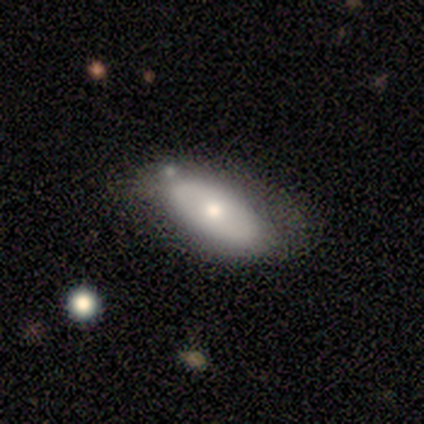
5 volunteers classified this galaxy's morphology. This is likely a smooth galaxy (60%). How rounded: clearly in between (100%). Merging: clearly none (100%).